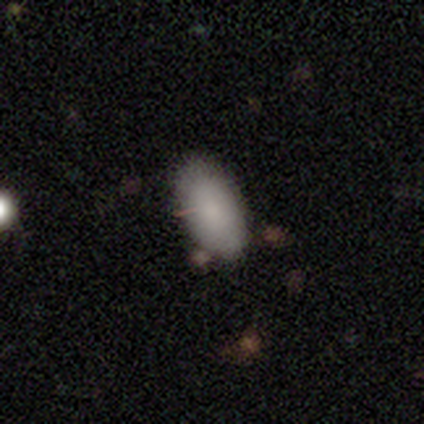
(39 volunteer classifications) Overall: smooth (90%). How rounded: in between (86%). Merging: none (59%; minor disturbance 28%).